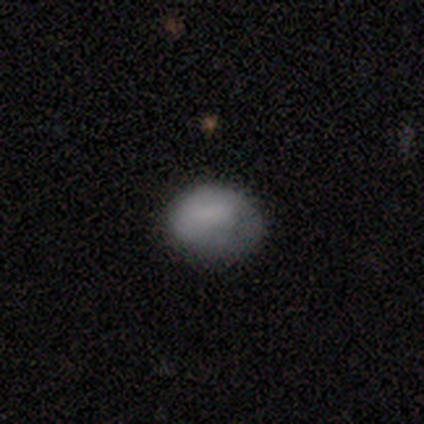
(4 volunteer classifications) Smooth or featured? 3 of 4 (75%) said smooth. How rounded? 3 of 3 (100%) said in between. Merging? 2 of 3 (67%) said minor disturbance.